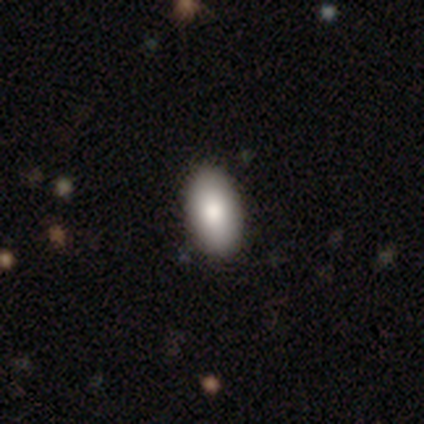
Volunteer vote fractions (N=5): smooth_or_featured: smooth (p=1.00)
how_rounded: in between (p=1.00)
merging: none (p=0.80) [alt: minor disturbance p=0.20]